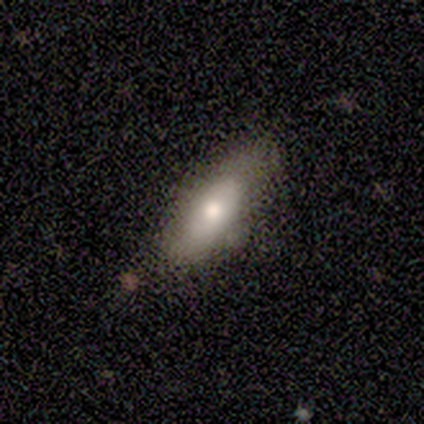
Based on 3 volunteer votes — Q: Smooth or featured?
A: smooth (100%)
Q: How rounded?
A: cigar-shaped (67%); runner-up: in between (33%)
Q: Merging?
A: none (100%)